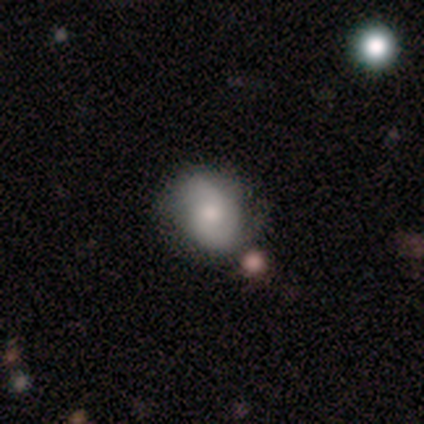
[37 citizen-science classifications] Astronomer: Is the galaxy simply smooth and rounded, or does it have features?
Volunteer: featured or disk — 62%.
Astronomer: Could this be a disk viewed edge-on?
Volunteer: no — 100%.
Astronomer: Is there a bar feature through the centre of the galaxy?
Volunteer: no — 78%.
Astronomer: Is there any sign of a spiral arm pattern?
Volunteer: yes — 78%.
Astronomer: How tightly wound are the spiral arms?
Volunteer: tight — 56%.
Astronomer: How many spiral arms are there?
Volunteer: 2 — 78%.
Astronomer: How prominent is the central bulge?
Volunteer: moderate — 52%.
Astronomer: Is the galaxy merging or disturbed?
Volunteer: none — 49% (runner-up: minor disturbance, 29%).